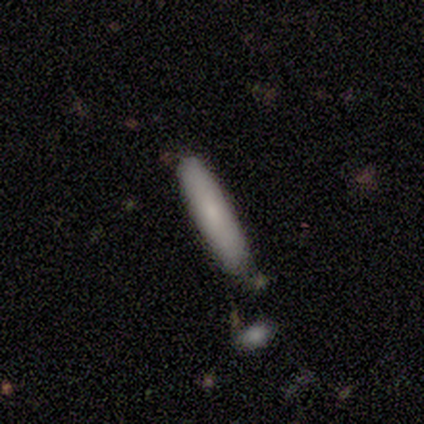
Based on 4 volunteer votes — smooth 100%, featured or disk 0%, star or artifact 0%. Down the decision tree: how rounded — cigar-shaped (100%); merging — none (100%).